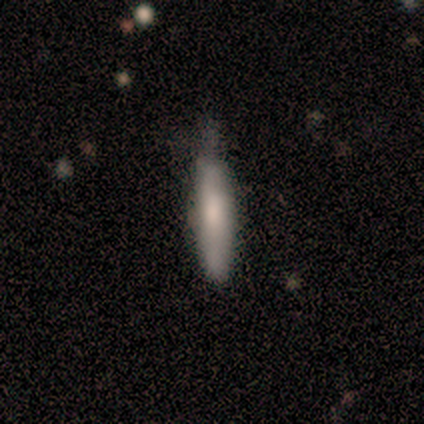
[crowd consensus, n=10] Overall: smooth (90%). How rounded: cigar-shaped (89%). Merging: none (60%; minor disturbance 40%).